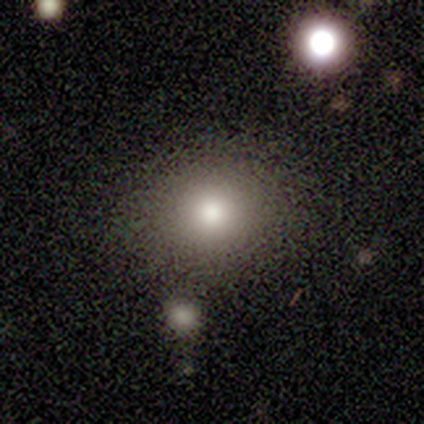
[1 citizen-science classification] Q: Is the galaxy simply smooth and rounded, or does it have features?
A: smooth — 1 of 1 (100%).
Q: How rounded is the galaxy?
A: in between — 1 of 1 (100%).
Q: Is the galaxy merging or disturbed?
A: none — 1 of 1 (100%).